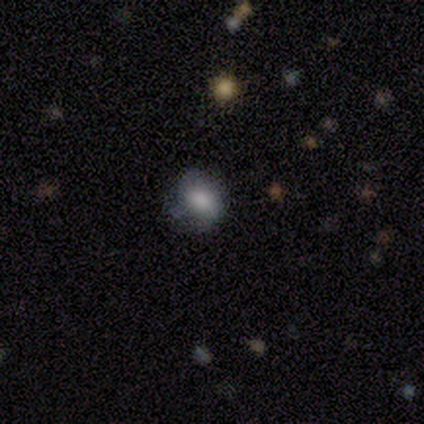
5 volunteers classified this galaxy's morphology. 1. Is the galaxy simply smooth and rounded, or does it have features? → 60% star or artifact, 40% smooth, 0% featured or disk.